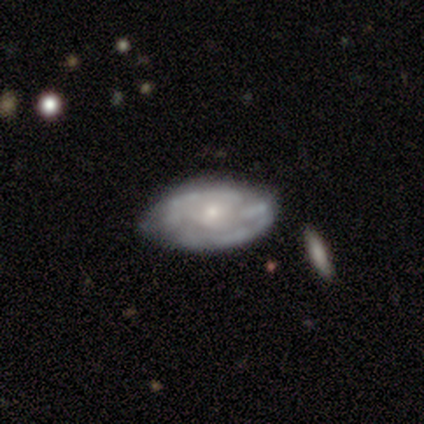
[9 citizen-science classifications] A featured or disk galaxy (56%) with no bar (80%), medium (60%) spiral arms (100%) and a small central bulge (60%). Merging: none (44%, tied with minor disturbance).